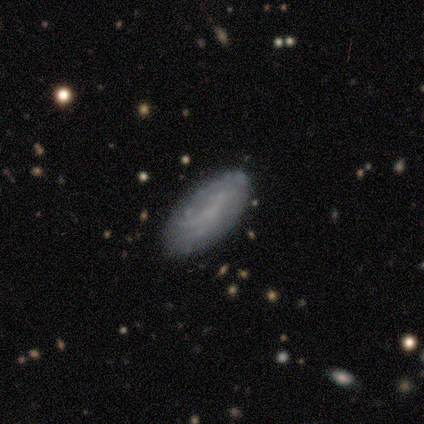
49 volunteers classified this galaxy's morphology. This is possibly a featured or disk galaxy (53%). It is clearly not viewed edge-on (96%). Bar: likely no (68%). Spiral arm pattern: possibly yes (56%). Spiral arm count: clearly can't tell (86%). Spiral winding: likely tight (64%). Central bulge: clearly none (80%). Merging: clearly none (80%).